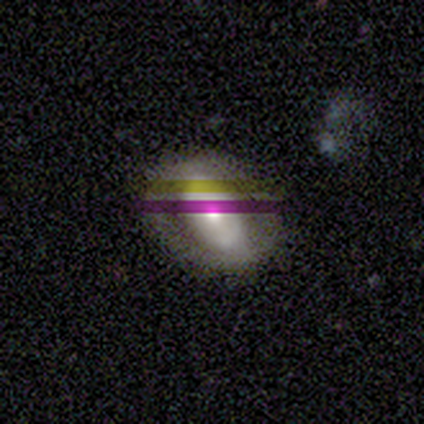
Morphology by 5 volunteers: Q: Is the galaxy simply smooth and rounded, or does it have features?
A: featured or disk — 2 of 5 (40%, tied with star or artifact).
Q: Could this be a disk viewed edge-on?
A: no — 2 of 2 (100%).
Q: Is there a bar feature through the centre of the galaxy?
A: no — 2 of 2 (100%).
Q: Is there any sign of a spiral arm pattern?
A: no — 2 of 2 (100%).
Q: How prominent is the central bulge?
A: moderate — 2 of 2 (100%).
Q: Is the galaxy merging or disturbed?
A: none — 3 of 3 (100%).